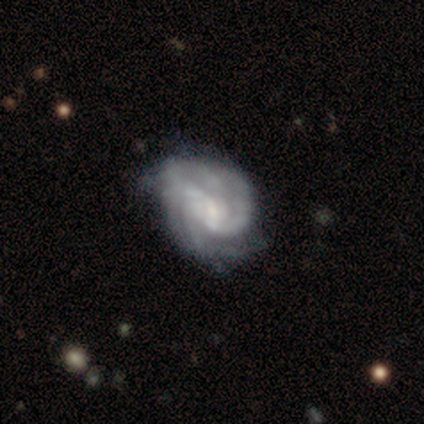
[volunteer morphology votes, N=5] smooth-or-featured: featured or disk: 100% | smooth: 0% | star or artifact: 0%
  disk-edge-on: no: 100% | yes: 0%
    bar: weak: 80% | no: 20% | strong: 0%
    has-spiral-arms: yes: 100% | no: 0%
      spiral-winding: tight: 60% | medium: 40% | loose: 0%
      spiral-arm-count: can't tell: 60% | 2: 20% | 4: 20% | 1: 0% | 3: 0% | more than 4: 0%
    bulge-size: small: 60% | moderate: 20% | none: 20% | dominant: 0% | large: 0%
  merging: none: 60% | major disturbance: 40% | minor disturbance: 0% | merger: 0%